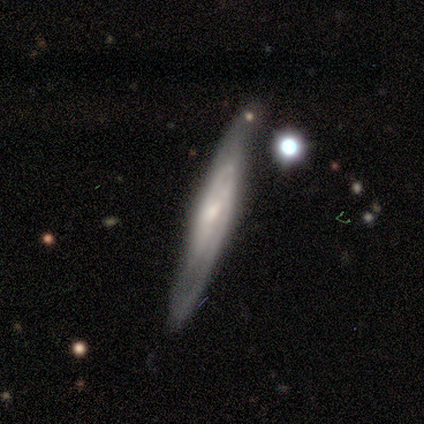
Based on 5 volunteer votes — This appears to be a featured or disk galaxy (80%) viewed edge-on (50%, tied with no) with a rounded central bulge (100%). Merging: none (80%).